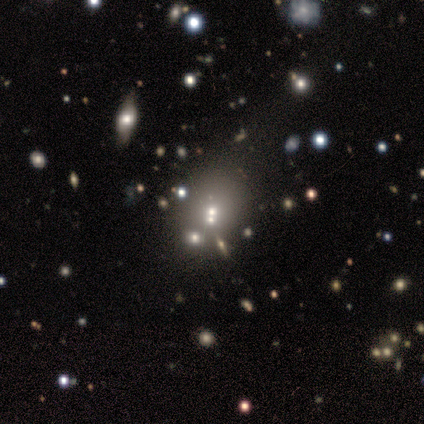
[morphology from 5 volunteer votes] Volunteers were most divided on "how rounded": in between: 60%, round: 40%, cigar-shaped: 0%. More confident: smooth or featured — smooth (100%); merging — none (60%).